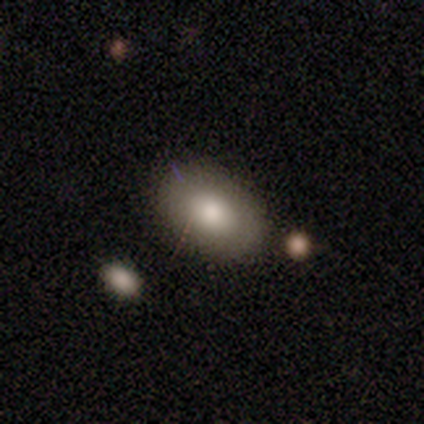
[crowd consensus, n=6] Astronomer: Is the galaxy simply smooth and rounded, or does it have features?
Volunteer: smooth — 83%.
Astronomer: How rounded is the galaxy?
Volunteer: in between — 80%.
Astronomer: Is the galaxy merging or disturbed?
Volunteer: none — 80%.